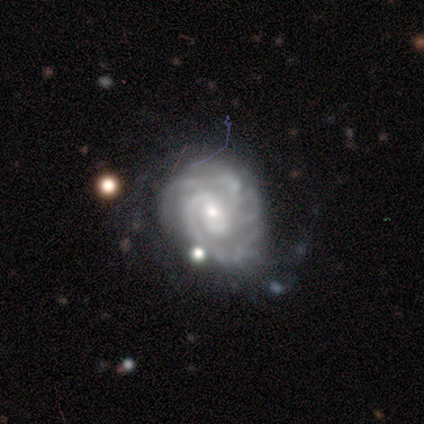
smooth_or_featured: featured or disk (p=1.00)
disk_edge_on: no (p=1.00)
bar: no (p=0.80) [alt: weak p=0.20]
has_spiral_arms: yes (p=1.00)
spiral_winding: tight (p=1.00)
spiral_arm_count: 3 (p=0.40) [tied with: can't tell p=0.40]
bulge_size: moderate (p=0.60) [alt: small p=0.40]
merging: minor disturbance (p=0.60) [alt: none p=0.40]